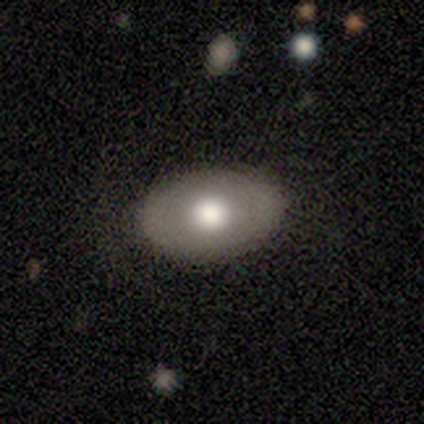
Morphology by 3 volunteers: A smooth galaxy with no disk features (67%) that is in between round and cigar-shaped (100%).

Vote fractions:
- Smooth or featured? smooth: 67% / featured or disk: 33% / star or artifact: 0%
- How rounded? in between: 100% / round: 0% / cigar-shaped: 0%
- Merging? none: 100% / minor disturbance: 0% / major disturbance: 0% / merger: 0%